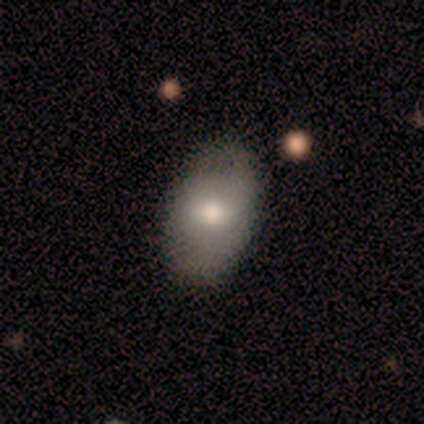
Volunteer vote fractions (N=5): Volunteers were most divided on "smooth or featured": smooth: 60%, featured or disk: 40%, star or artifact: 0%. More confident: how rounded — in between (100%); merging — none (60%).